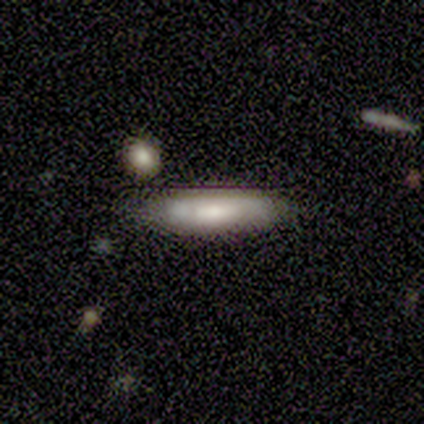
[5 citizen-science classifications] Smooth or featured? smooth (60%)
How rounded? in between (67%)
Merging? none (80%)